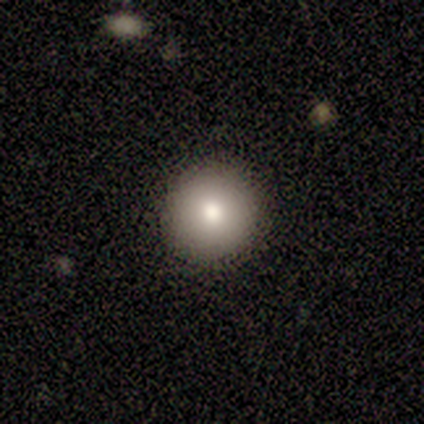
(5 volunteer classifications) This is likely a smooth galaxy (60%). How rounded: clearly round (100%). Merging: clearly none (80%).